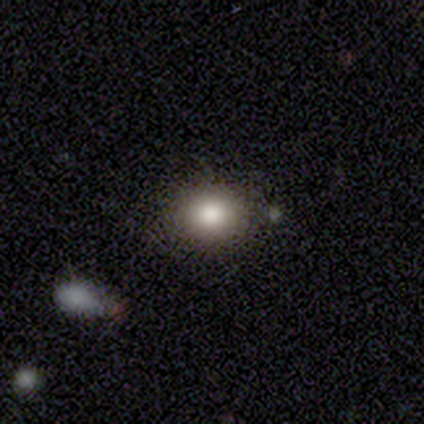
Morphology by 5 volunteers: type=smooth (80%); roundness=round (75%); merging=none (80%).